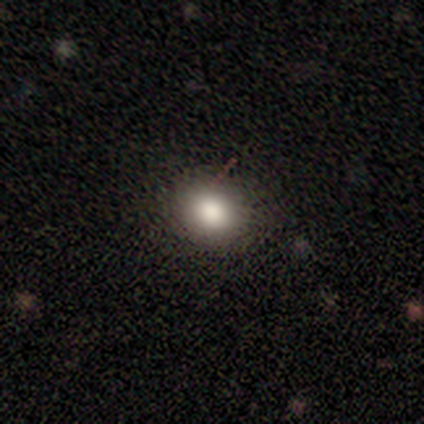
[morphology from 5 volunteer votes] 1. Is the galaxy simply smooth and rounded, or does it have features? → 60% star or artifact, 40% smooth, 0% featured or disk.